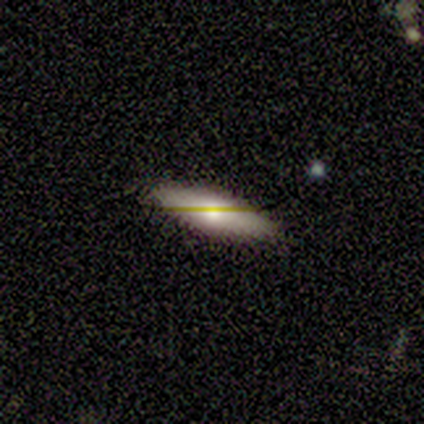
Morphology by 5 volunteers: smooth_or_featured: smooth (p=0.80) [alt: star or artifact p=0.20]
how_rounded: in between (p=0.75) [alt: cigar-shaped p=0.25]
merging: none (p=0.75) [alt: minor disturbance p=0.25]